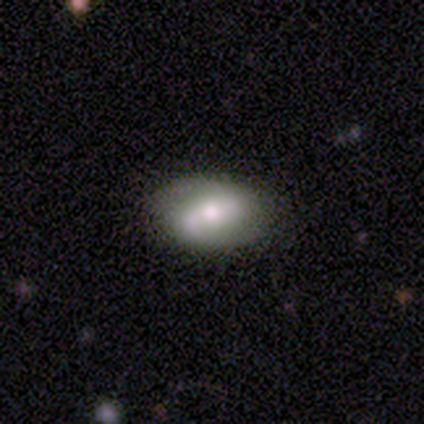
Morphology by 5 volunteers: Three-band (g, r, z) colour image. It shows a featured or disk galaxy (60%) with a weak bar (67%), 2 (67%) loose (67%) spiral arms (100%) and a moderate central bulge (67%). Merging: none (80%).